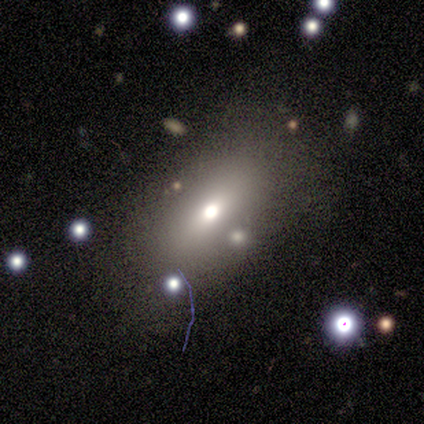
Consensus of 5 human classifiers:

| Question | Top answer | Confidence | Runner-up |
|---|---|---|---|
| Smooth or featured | smooth | 40% | tied: featured or disk (40%) |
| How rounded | in between | 100% | — |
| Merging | none | 50% | minor disturbance (25%) |